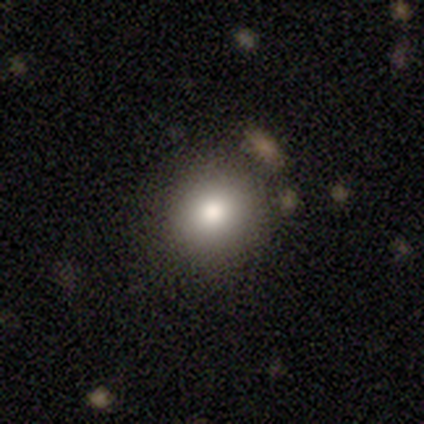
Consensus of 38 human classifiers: Overall: smooth (71%). How rounded: round (89%). Merging: none (80%).